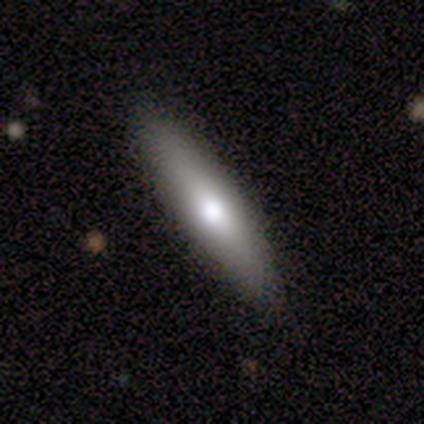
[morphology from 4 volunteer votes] Smooth or featured?
  - featured or disk: 75% *
  - smooth: 25%
  - star or artifact: 0%
Edge-on disk?
  - no: 67% *
  - yes: 33%
Bar?
  - no: 100% *
  - strong: 0%
  - weak: 0%
Spiral arms?
  - no: 100% *
  - yes: 0%
Bulge size?
  - moderate: 50% * (tied)
  - none: 50% * (tied)
  - dominant: 0%
  - large: 0%
  - small: 0%
Merging?
  - none: 100% *
  - minor disturbance: 0%
  - major disturbance: 0%
  - merger: 0%